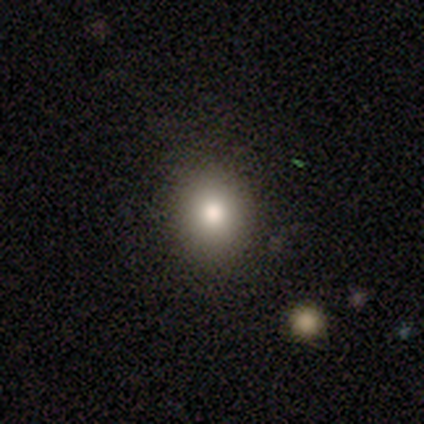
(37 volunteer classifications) A smooth galaxy with no disk features (65%) that is round (79%).

Vote fractions:
- Smooth or featured? smooth: 65% / star or artifact: 22% / featured or disk: 14%
- How rounded? round: 79% / in between: 21% / cigar-shaped: 0%
- Merging? none: 97% / minor disturbance: 3% / major disturbance: 0% / merger: 0%